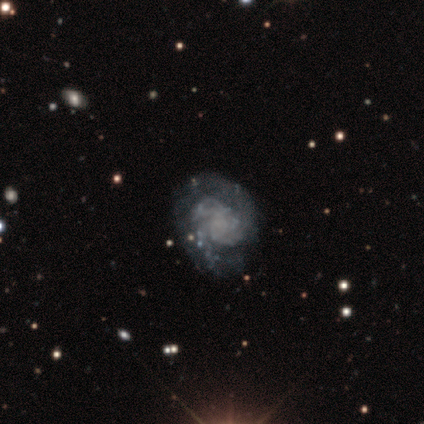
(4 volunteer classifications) Volunteers were most divided on "smooth or featured" (2-way tie): smooth: 50%, featured or disk: 50%, star or artifact: 0%; "how rounded" (2-way tie): round: 50%, in between: 50%, cigar-shaped: 0%. More confident: merging — none (50%).